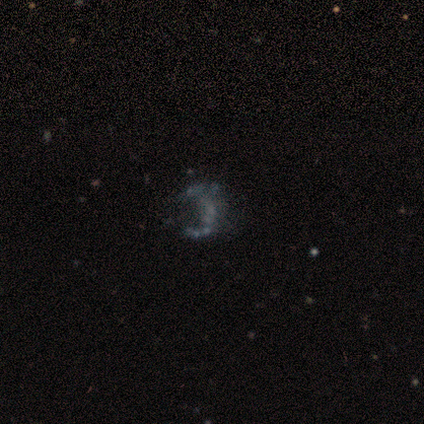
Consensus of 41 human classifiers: This is likely a featured or disk galaxy (68%). It is clearly not viewed edge-on (100%). Bar: likely no (79%). Spiral arm pattern: likely no (68%). Central bulge: clearly none (86%). Merging: likely none (70%).